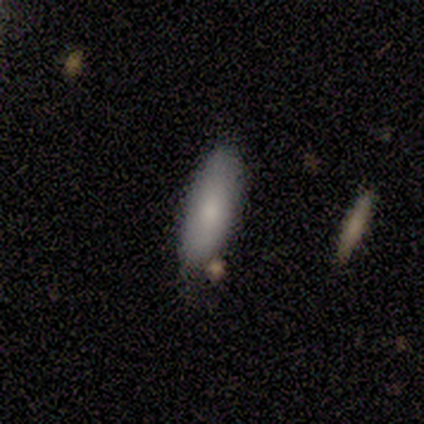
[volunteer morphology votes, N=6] smooth-or-featured: smooth: 83% | featured or disk: 17% | star or artifact: 0%
  how-rounded: in between: 60% | cigar-shaped: 40% | round: 0%
  merging: none: 83% | minor disturbance: 17% | major disturbance: 0% | merger: 0%